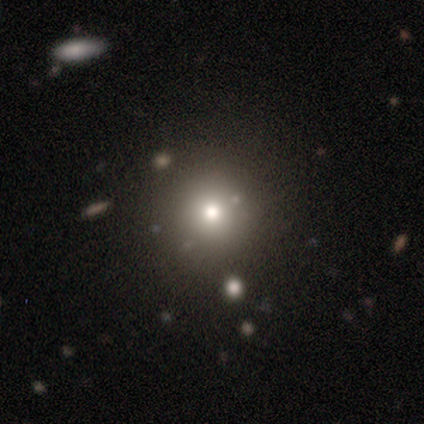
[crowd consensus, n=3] Smooth or featured: smooth — 100%
How rounded: round — 100%
Merging: none — 100%